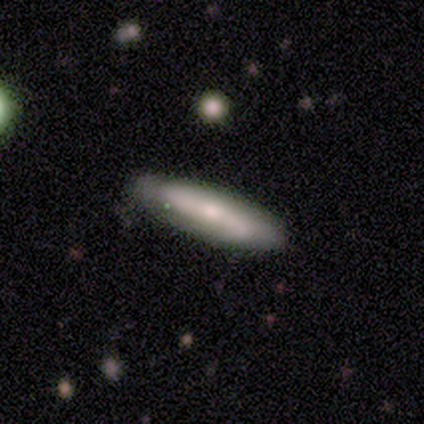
Q: Smooth or featured?
A: smooth (100%)
Q: How rounded?
A: cigar-shaped (60%); runner-up: in between (40%)
Q: Merging?
A: none (80%); runner-up: minor disturbance (20%)